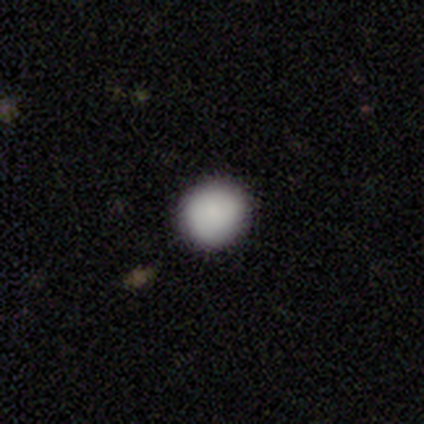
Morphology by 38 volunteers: Volunteers were most divided on "merging": none: 89%, minor disturbance: 11%, major disturbance: 0%, merger: 0%. More confident: how rounded — round (91%); smooth or featured — smooth (87%).